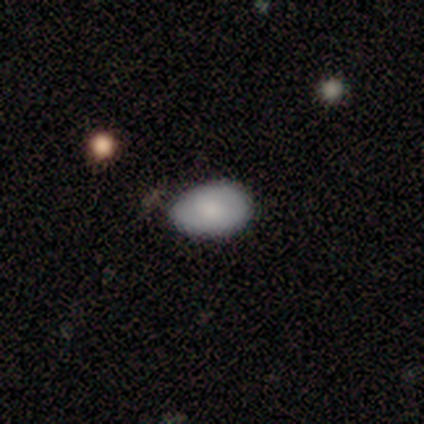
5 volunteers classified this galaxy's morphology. Q: Smooth or featured?
A: smooth (100%)
Q: How rounded?
A: in between (100%)
Q: Merging?
A: none (100%)